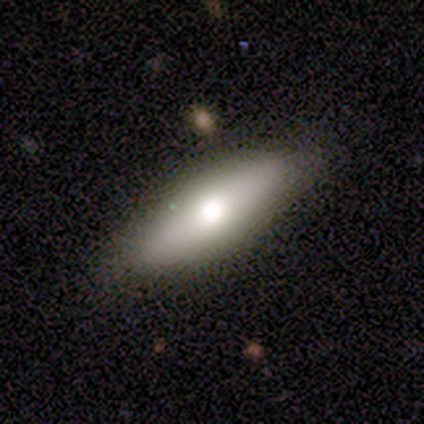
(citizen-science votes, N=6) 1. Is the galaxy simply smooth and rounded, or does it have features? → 83% smooth, 17% featured or disk, 0% star or artifact.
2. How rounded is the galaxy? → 60% cigar-shaped, 40% in between, 0% round.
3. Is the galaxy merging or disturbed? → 83% none, 17% minor disturbance, 0% major disturbance, 0% merger.